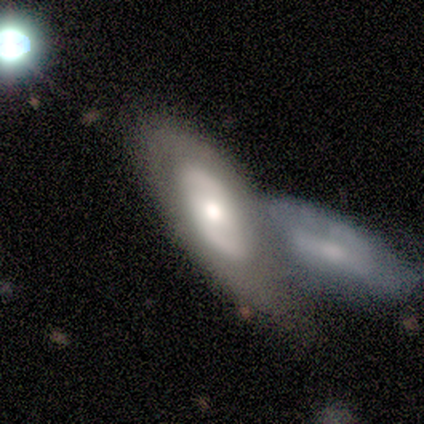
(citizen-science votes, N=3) This appears to be a featured or disk galaxy (100%) with no bar (67%), no spiral arms (100%) and a moderate central bulge (100%). Merging: minor disturbance (67%).